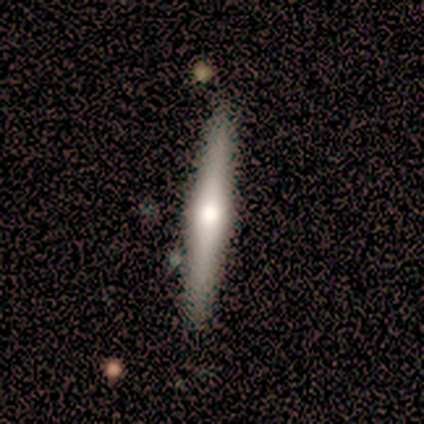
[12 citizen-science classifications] Smooth or featured? featured or disk (83%)
Edge-on disk? yes (90%)
Edge-on bulge? rounded (100%)
Merging? none (100%)